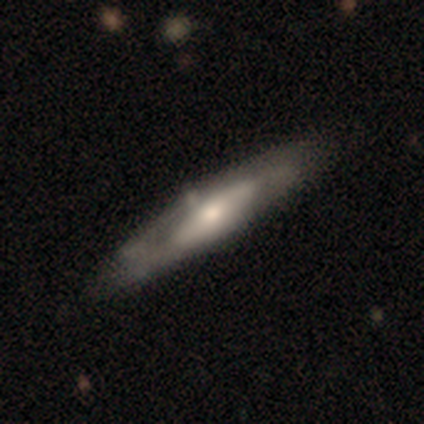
smooth_or_featured: featured or disk (p=0.62) [alt: smooth p=0.38]
disk_edge_on: no (p=0.54) [alt: yes p=0.46]
bar: no (p=0.54) [alt: strong p=0.38]
has_spiral_arms: yes (p=0.62) [alt: no p=0.38]
spiral_winding: medium (p=0.62) [alt: tight p=0.25]
spiral_arm_count: 2 (p=0.62) [alt: can't tell p=0.38]
bulge_size: small (p=0.46) [alt: moderate p=0.38]
merging: none (p=0.51) [alt: minor disturbance p=0.13]